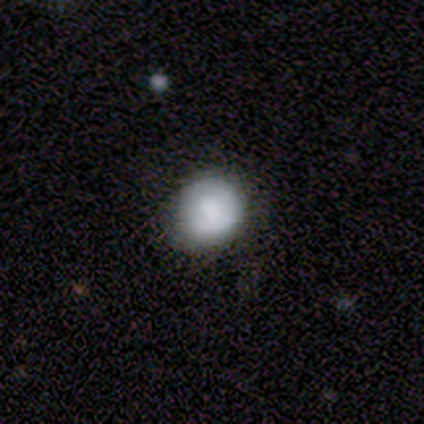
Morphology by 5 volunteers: Volunteers were most divided on "merging": minor disturbance: 60%, none: 40%, major disturbance: 0%, merger: 0%. More confident: smooth or featured — smooth (80%); how rounded — round (75%).